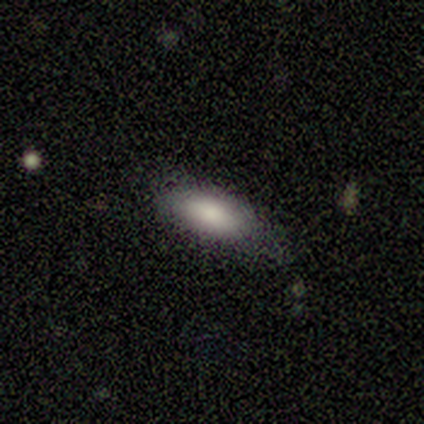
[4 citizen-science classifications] Smooth or featured? 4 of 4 (100%) said smooth. How rounded? 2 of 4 (50%, tied with cigar-shaped) said in between. Merging? 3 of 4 (75%) said none.